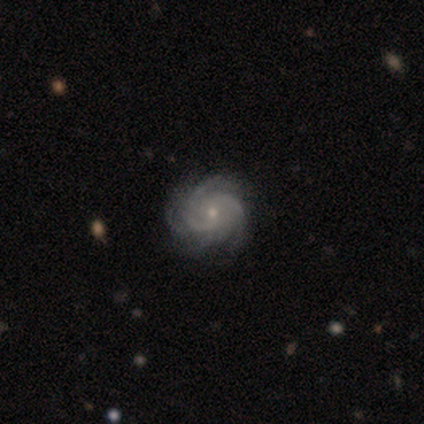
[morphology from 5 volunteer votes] Smooth or featured?
  - featured or disk: 80% *
  - smooth: 20%
  - star or artifact: 0%
Edge-on disk?
  - no: 100% *
  - yes: 0%
Bar?
  - no: 75% *
  - weak: 25%
  - strong: 0%
Spiral arms?
  - yes: 100% *
  - no: 0%
Spiral winding?
  - tight: 75% *
  - medium: 25%
  - loose: 0%
Spiral arm count?
  - 3: 50% *
  - 4: 25%
  - can't tell: 25%
  - 1: 0%
  - 2: 0%
  - more than 4: 0%
Bulge size?
  - small: 75% *
  - moderate: 25%
  - dominant: 0%
  - large: 0%
  - none: 0%
Merging?
  - none: 80% *
  - minor disturbance: 20%
  - major disturbance: 0%
  - merger: 0%